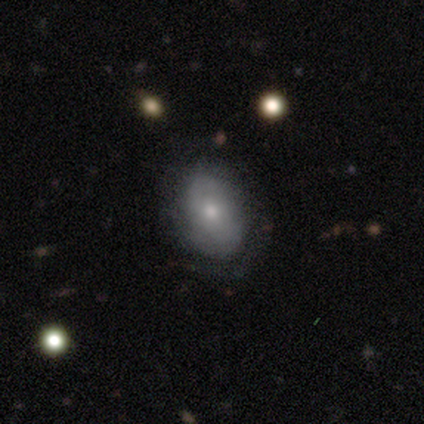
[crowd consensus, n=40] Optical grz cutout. It shows a smooth galaxy with no disk features (62%) that is in between round and cigar-shaped (80%). Merging: none (54%).